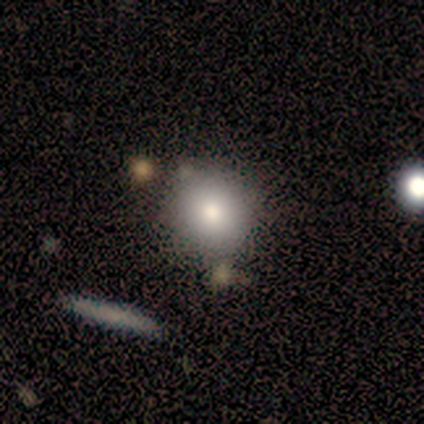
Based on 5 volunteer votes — smooth_or_featured: smooth (p=0.60) [alt: featured or disk p=0.20]
how_rounded: round (p=1.00)
merging: none (p=0.75) [alt: minor disturbance p=0.25]